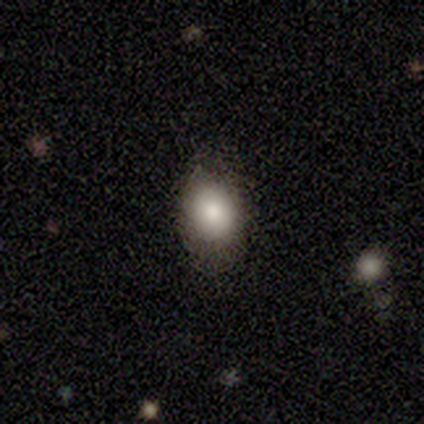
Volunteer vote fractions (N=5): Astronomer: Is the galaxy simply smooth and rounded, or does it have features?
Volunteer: smooth — 80%.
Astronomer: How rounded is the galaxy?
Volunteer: round — 50%, tied with in between at 50%.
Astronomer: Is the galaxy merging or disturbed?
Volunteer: none — 75%.